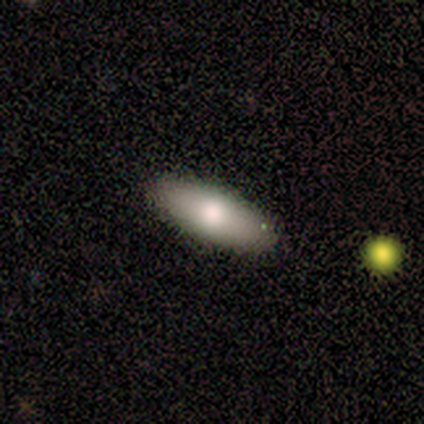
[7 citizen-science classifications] Volunteers were most divided on "how rounded": in between: 86%, cigar-shaped: 14%, round: 0%. More confident: smooth or featured — smooth (100%); merging — none (100%).